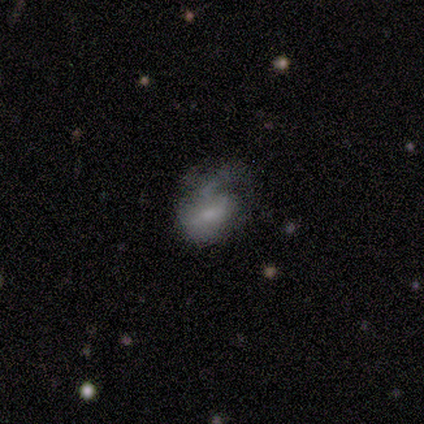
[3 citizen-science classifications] Smooth or featured? 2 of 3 (67%) said star or artifact.